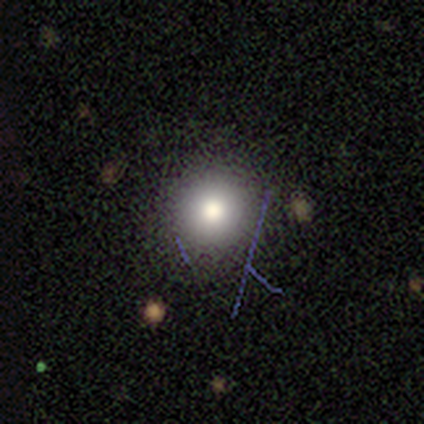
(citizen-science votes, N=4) smooth-or-featured: star or artifact: 50% | smooth: 25% | featured or disk: 25%